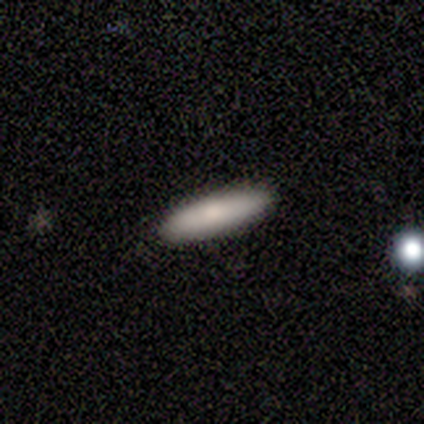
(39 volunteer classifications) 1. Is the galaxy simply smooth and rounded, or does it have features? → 77% smooth, 13% featured or disk, 10% star or artifact.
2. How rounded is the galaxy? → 87% cigar-shaped, 13% in between, 0% round.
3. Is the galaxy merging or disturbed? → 86% none, 11% minor disturbance, 3% merger, 0% major disturbance.